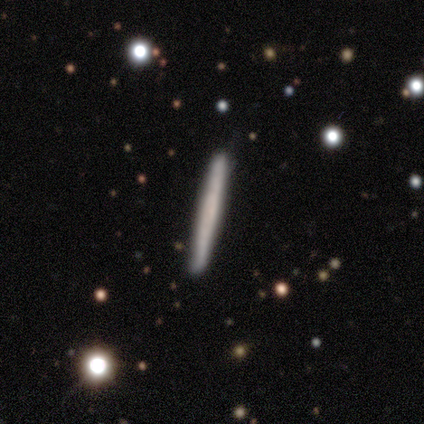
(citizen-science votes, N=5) Smooth or featured?
  - smooth: 80% *
  - featured or disk: 20%
  - star or artifact: 0%
How rounded?
  - cigar-shaped: 100% *
  - round: 0%
  - in between: 0%
Merging?
  - none: 100% *
  - minor disturbance: 0%
  - major disturbance: 0%
  - merger: 0%